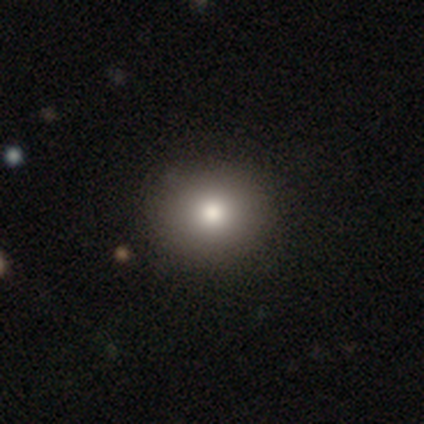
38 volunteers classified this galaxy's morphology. type=smooth (74%); roundness=round (89%); merging=none (91%).